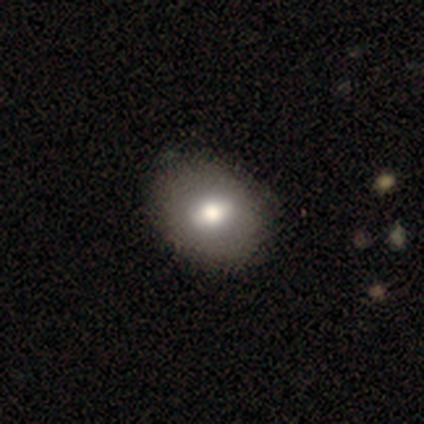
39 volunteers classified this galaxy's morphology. Smooth or featured? smooth (72%)
How rounded? in between (79%)
Merging? none (68%)